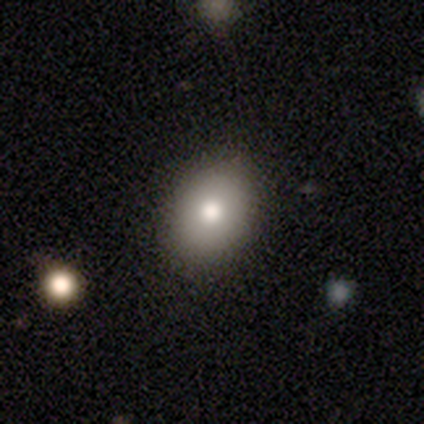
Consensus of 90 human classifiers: A smooth galaxy with no disk features (80%) that is in between round and cigar-shaped (54%).

Vote fractions:
- Smooth or featured? smooth: 80% / featured or disk: 12% / star or artifact: 8%
- How rounded? in between: 54% / round: 44% / cigar-shaped: 1%
- Merging? none: 80% / minor disturbance: 16% / major disturbance: 5% / merger: 0%